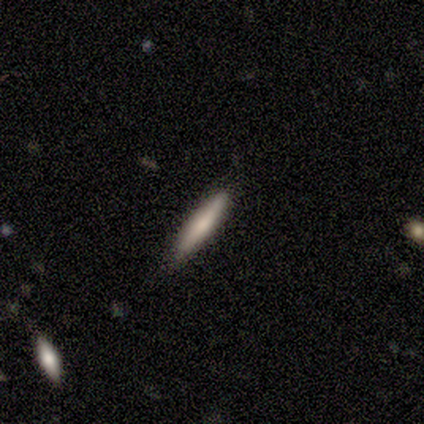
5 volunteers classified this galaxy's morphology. type=smooth (100%); roundness=cigar-shaped (100%); merging=none (80%).